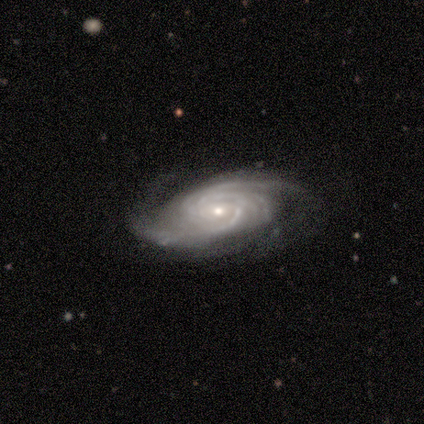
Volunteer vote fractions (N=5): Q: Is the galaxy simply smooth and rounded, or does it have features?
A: featured or disk — 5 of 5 (100%).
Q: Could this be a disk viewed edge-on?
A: no — 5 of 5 (100%).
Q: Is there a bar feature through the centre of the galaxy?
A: no — 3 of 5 (60%).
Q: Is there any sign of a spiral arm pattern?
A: yes — 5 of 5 (100%).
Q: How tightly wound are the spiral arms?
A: tight — 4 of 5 (80%).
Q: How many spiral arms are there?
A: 1 — 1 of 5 (20%, tied with 2, 3, more than 4 and can't tell).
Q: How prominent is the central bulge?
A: small — 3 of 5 (60%).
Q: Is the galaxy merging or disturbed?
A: minor disturbance — 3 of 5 (60%).